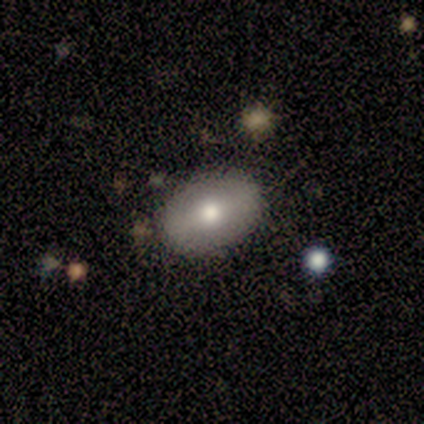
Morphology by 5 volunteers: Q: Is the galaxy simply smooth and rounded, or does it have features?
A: smooth — 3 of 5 (60%).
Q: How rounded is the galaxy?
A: in between — 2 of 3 (67%).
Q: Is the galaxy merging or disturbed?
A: none — 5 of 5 (100%).